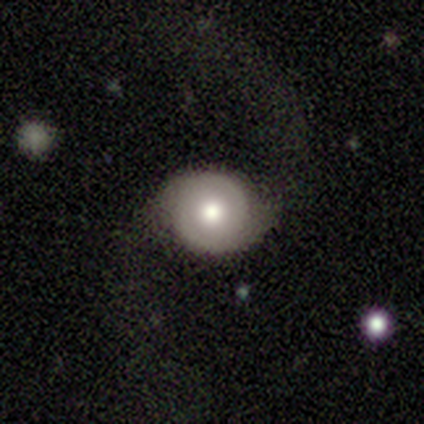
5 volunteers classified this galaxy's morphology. smooth_or_featured: featured or disk (p=0.60) [alt: smooth p=0.40]
disk_edge_on: no (p=1.00)
bar: no (p=1.00)
has_spiral_arms: yes (p=0.67) [alt: no p=0.33]
spiral_winding: tight (p=0.50) [tied with: loose p=0.50]
spiral_arm_count: 2 (p=1.00)
bulge_size: moderate (p=0.67) [alt: dominant p=0.33]
merging: none (p=0.60) [alt: minor disturbance p=0.20]